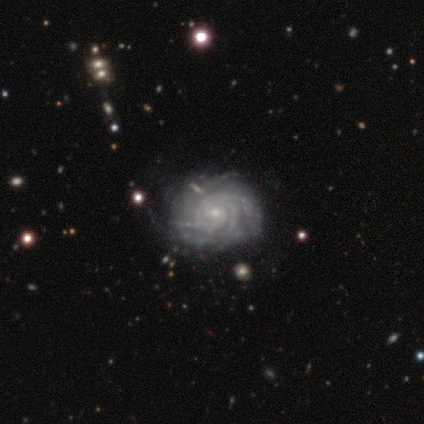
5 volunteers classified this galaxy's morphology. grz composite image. It shows a featured or disk galaxy (100%) with a weak bar (40%, tied with no), 4 (40%, tied with more than 4) tight (80%) spiral arms (100%) and a small central bulge (100%). Merging: none (100%).